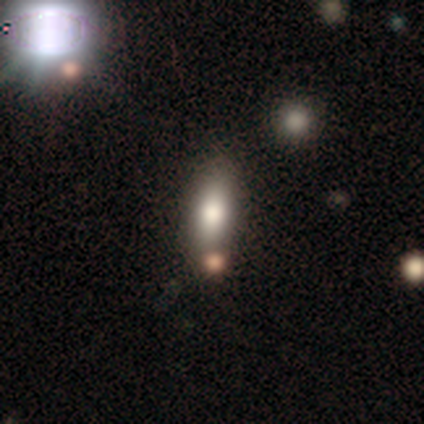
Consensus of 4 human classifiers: Volunteers were most divided on "how rounded": in between: 67%, cigar-shaped: 33%, round: 0%. More confident: smooth or featured — smooth (75%); merging — merger (67%).